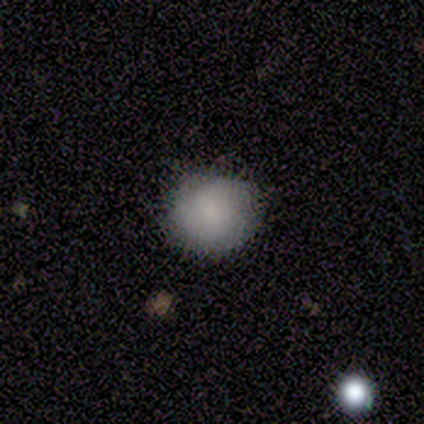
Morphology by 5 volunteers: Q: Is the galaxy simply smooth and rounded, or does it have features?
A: smooth — 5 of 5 (100%).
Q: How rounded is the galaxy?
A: round — 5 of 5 (100%).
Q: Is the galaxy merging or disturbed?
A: none — 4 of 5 (80%).